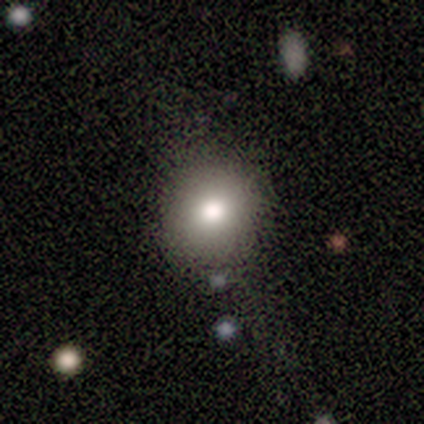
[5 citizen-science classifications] smooth_or_featured: smooth (p=0.80) [alt: star or artifact p=0.20]
how_rounded: round (p=1.00)
merging: none (p=1.00)